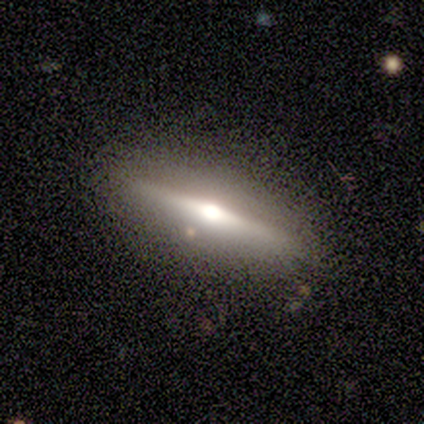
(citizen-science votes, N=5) Morphology: type=featured or disk (80%); edge-on=yes (100%); edge-on bulge=rounded (100%); merging=none (60%).